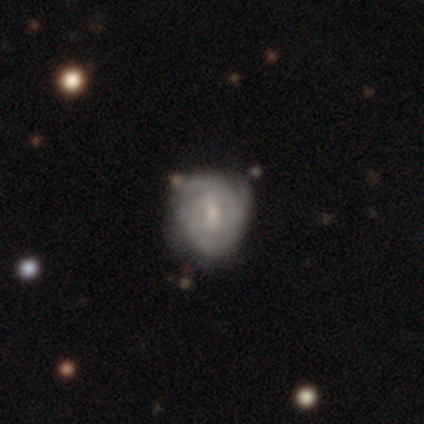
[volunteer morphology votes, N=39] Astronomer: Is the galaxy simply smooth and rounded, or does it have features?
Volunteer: featured or disk — 69%.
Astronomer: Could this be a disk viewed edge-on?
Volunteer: no — 100%.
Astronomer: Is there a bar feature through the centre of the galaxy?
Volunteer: weak — 56% (runner-up: no, 37%).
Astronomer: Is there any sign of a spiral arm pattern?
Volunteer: yes — 89%.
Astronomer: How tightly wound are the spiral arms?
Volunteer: tight — 62%.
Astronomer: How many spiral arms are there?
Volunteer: can't tell — 50%.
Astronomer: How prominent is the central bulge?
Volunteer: small — 67%.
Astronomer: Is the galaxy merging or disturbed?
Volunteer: none — 66%.